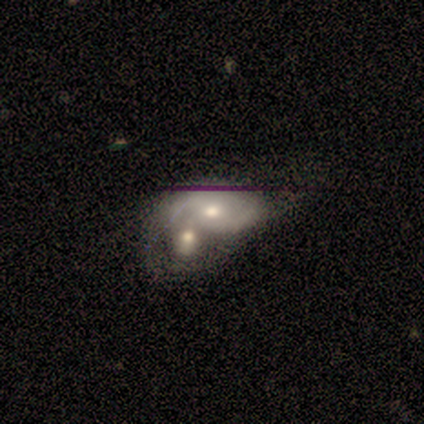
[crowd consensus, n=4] featured or disk 100%, smooth 0%, star or artifact 0%. Down the decision tree: edge-on disk — no (100%); bar — weak (50%, tied with no); spiral arms — yes (75%); spiral arm count — 2 (100%); spiral winding — loose (67%); bulge size — moderate (75%); merging — merger (75%).